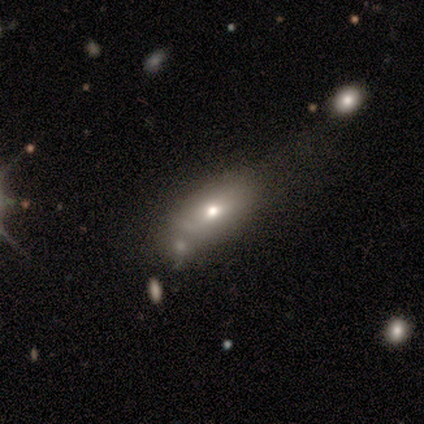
Q: Smooth or featured?
A: smooth (40%); tied with: featured or disk (40%)
Q: How rounded?
A: in between (100%)
Q: Merging?
A: merger (50%); runner-up: none (25%)